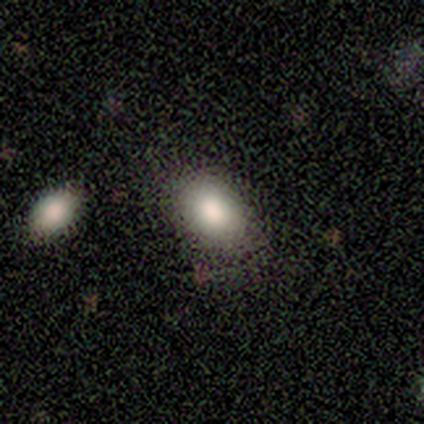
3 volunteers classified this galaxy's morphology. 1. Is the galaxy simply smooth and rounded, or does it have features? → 100% smooth, 0% featured or disk, 0% star or artifact.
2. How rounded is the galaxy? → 67% in between, 33% round, 0% cigar-shaped.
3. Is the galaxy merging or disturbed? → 67% none, 33% minor disturbance, 0% major disturbance, 0% merger.